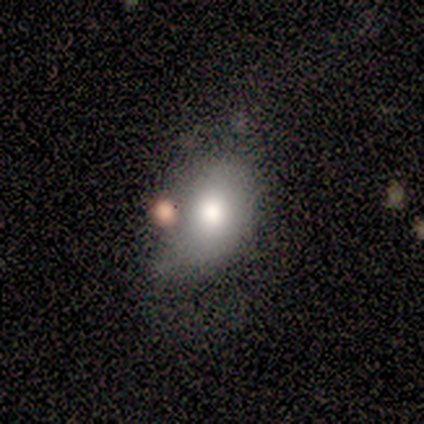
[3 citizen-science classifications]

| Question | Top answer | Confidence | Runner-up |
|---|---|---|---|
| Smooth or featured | smooth | 67% | featured or disk (33%) |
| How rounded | in between | 100% | — |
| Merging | none | 33% | tied: minor disturbance (33%), major disturbance (33%) |